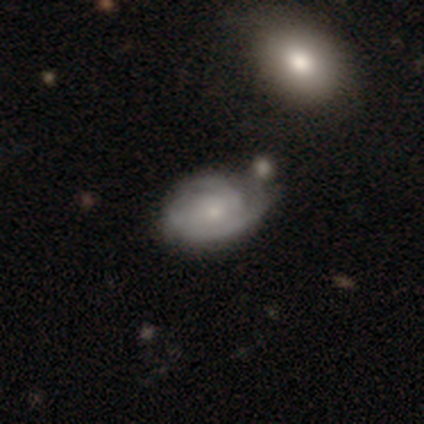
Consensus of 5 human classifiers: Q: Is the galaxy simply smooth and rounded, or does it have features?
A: featured or disk — 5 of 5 (100%).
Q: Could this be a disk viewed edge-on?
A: no — 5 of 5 (100%).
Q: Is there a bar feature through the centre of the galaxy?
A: no — 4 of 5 (80%).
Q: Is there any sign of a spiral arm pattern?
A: yes — 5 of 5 (100%).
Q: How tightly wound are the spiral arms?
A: tight — 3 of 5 (60%).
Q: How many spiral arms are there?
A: can't tell — 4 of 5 (80%).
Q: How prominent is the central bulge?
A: moderate — 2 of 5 (40%, tied with none).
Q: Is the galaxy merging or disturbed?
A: none — 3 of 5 (60%).